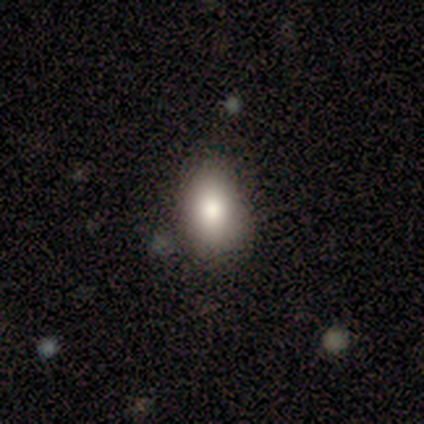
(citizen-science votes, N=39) Smooth or featured? 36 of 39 (92%) said smooth. How rounded? 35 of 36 (97%) said in between. Merging? 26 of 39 (67%) said none.